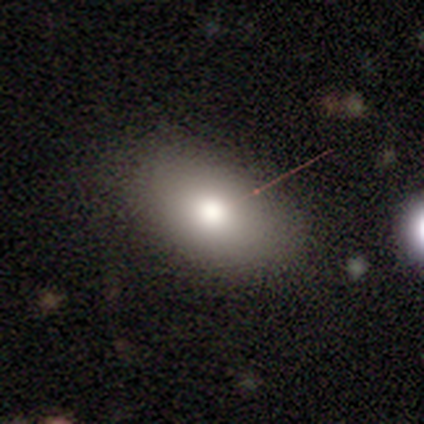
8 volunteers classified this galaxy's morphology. A smooth galaxy with no disk features (50%) that is in between round and cigar-shaped (100%). Merging: none (83%).